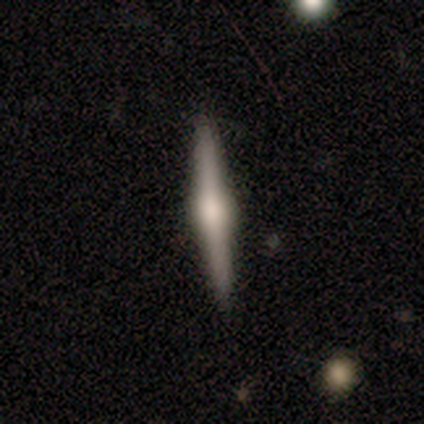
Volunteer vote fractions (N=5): This is clearly a featured or disk galaxy (80%). It is clearly viewed edge-on (100%). Edge-on bulge: likely rounded (75%). Merging: clearly none (80%).